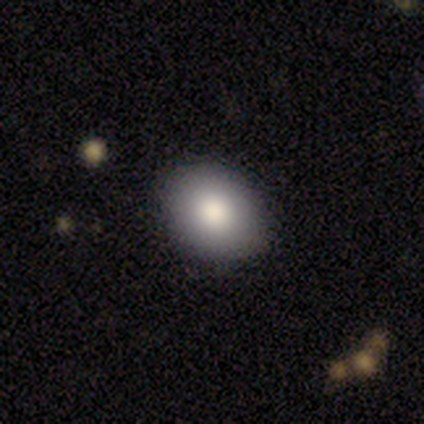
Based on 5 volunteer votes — smooth_or_featured: smooth (p=0.60) [alt: star or artifact p=0.40]
how_rounded: round (p=0.67) [alt: in between p=0.33]
merging: none (p=1.00)